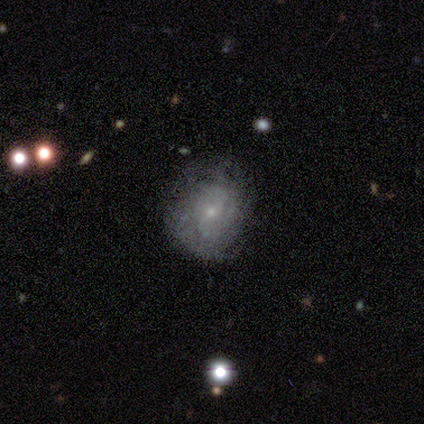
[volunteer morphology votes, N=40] This is likely a featured or disk galaxy (75%). It is clearly not viewed edge-on (97%). Bar: likely no (69%). Spiral arm pattern: likely yes (72%). Spiral arm count: likely can't tell (62%). Spiral winding: possibly tight (57%). Central bulge: clearly small (86%). Merging: likely none (60%).